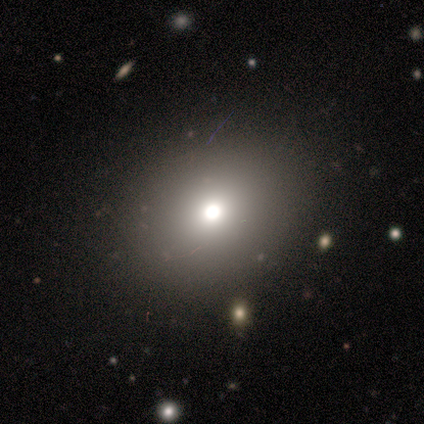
Smooth or featured: smooth — 67% (featured or disk — 33%)
How rounded: round — 50% (tied with in between — 50%)
Merging: none — 83% (merger — 17%)